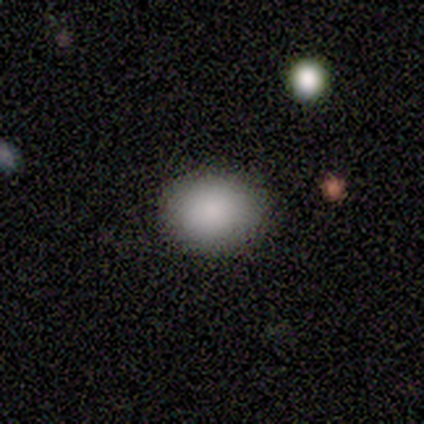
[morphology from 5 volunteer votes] Volunteers were most divided on "how rounded": in between: 60%, round: 40%, cigar-shaped: 0%. More confident: smooth or featured — smooth (100%); merging — none (100%).